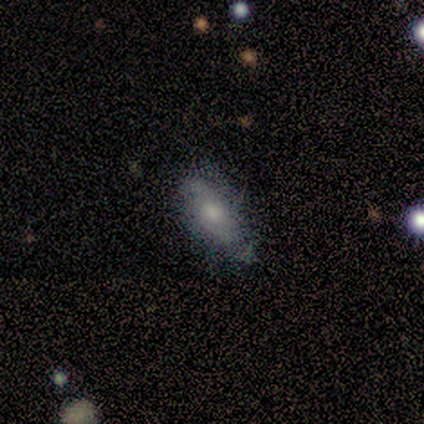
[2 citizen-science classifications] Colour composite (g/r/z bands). It shows a smooth galaxy with no disk features (100%) that is in between round and cigar-shaped (100%). Merging: minor disturbance (100%).